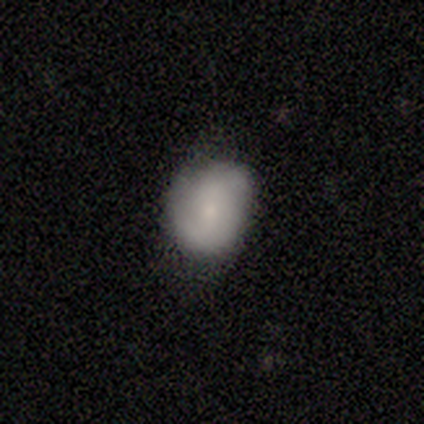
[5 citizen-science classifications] Volunteers were most divided on "smooth or featured": smooth: 60%, featured or disk: 40%, star or artifact: 0%. More confident: how rounded — in between (67%); merging — none (60%).